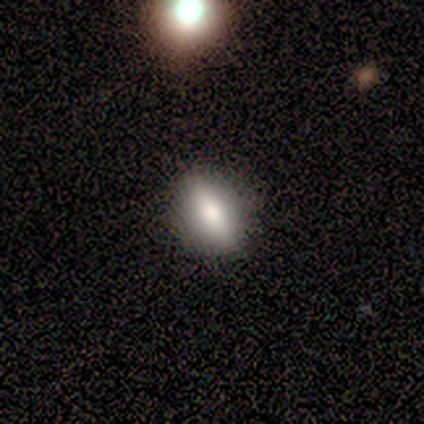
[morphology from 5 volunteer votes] A smooth galaxy with no disk features (40%, tied with featured or disk) that is cigar-shaped (100%).

Vote fractions:
- Smooth or featured? smooth: 40% (tied) / featured or disk: 40% (tied) / star or artifact: 20%
- How rounded? cigar-shaped: 100% / round: 0% / in between: 0%
- Merging? none: 75% / minor disturbance: 25% / major disturbance: 0% / merger: 0%